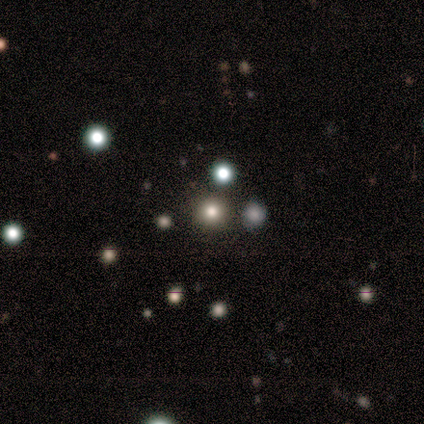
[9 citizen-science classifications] smooth_or_featured: smooth (p=0.44) [tied with: star or artifact p=0.44]
how_rounded: round (p=1.00)
merging: none (p=1.00)